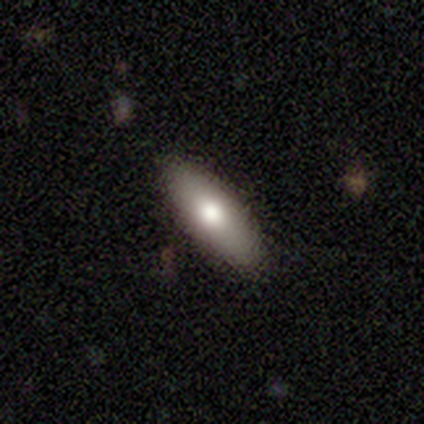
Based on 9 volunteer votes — smooth_or_featured: smooth (p=0.67) [alt: featured or disk p=0.33]
how_rounded: in between (p=0.67) [alt: cigar-shaped p=0.33]
merging: none (p=0.78) [alt: minor disturbance p=0.22]